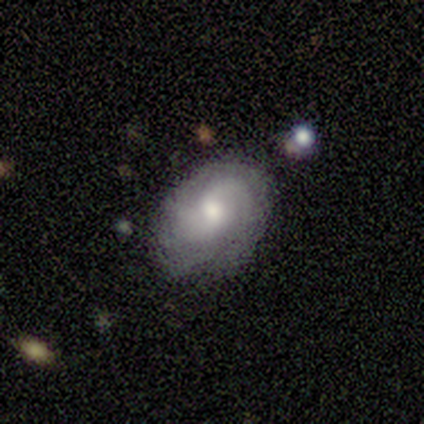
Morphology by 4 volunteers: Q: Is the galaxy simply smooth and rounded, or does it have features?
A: featured or disk — 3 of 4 (75%).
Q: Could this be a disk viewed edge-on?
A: no — 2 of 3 (67%).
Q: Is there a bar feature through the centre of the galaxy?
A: no — 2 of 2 (100%).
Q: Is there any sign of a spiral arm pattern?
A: yes — 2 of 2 (100%).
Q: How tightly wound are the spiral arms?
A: medium — 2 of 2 (100%).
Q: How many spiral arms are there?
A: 2 — 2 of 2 (100%).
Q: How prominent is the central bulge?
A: moderate — 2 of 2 (100%).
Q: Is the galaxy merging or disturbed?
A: none — 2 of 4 (50%, tied with minor disturbance).